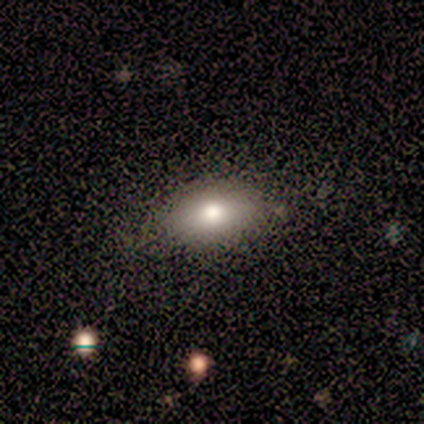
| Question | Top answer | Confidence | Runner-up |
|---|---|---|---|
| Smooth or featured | smooth | 60% | featured or disk (40%) |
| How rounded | in between | 100% | — |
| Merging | none | 100% | — |